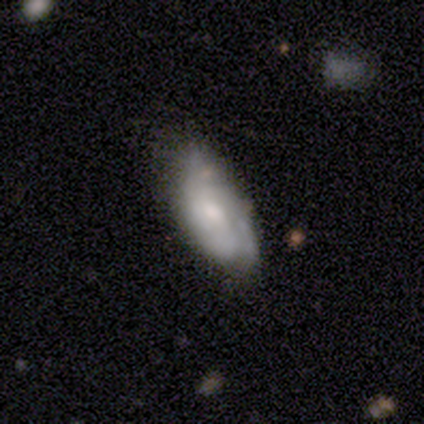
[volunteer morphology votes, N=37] smooth-or-featured: featured or disk: 62% | smooth: 32% | star or artifact: 5%
  disk-edge-on: no: 87% | yes: 13%
    bar: no: 70% | weak: 25% | strong: 5%
    has-spiral-arms: yes: 50% (tied) | no: 50% (tied)
      spiral-winding: tight: 50% | medium: 30% | loose: 20%
      spiral-arm-count: can't tell: 80% | 3: 20% | 1: 0% | 2: 0% | 4: 0% | more than 4: 0%
    bulge-size: moderate: 55% | small: 35% | dominant: 5% | large: 5% | none: 0%
  merging: none: 51% | minor disturbance: 37% | major disturbance: 11% | merger: 0%